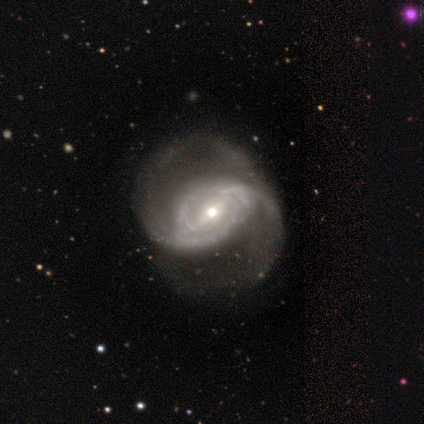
Smooth or featured? 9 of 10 (90%) said featured or disk. Edge-on disk? 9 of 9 (100%) said no. Bar? 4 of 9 (44%, tied with no) said weak. Spiral arms? 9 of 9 (100%) said yes. Spiral winding? 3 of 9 (33%, tied with medium and loose) said tight. Spiral arm count? 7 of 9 (78%) said 2. Bulge size? 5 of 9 (56%) said small. Merging? 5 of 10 (50%) said none.